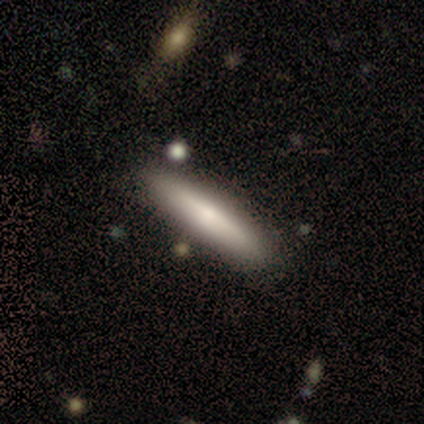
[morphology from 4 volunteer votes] Overall: smooth (50%, tied with featured or disk). How rounded: cigar-shaped (100%). Merging: none (100%).